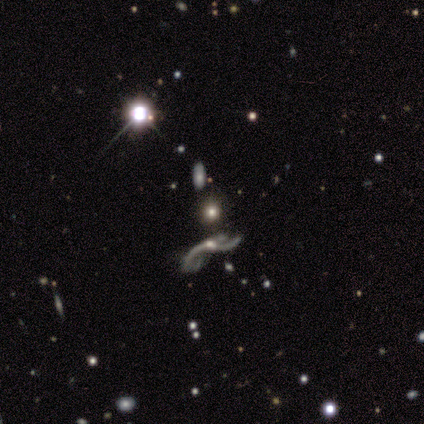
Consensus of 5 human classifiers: Smooth or featured?
  - smooth: 40% * (tied)
  - star or artifact: 40% * (tied)
  - featured or disk: 20%
How rounded?
  - in between: 100% *
  - round: 0%
  - cigar-shaped: 0%
Merging?
  - major disturbance: 67% *
  - none: 33%
  - minor disturbance: 0%
  - merger: 0%